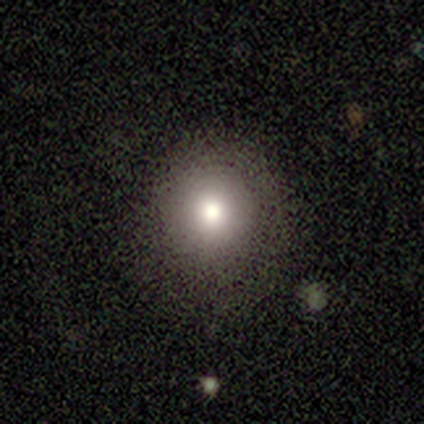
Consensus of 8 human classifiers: smooth 75%, featured or disk 12%, star or artifact 12%. Down the decision tree: how rounded — round (83%); merging — none (100%).